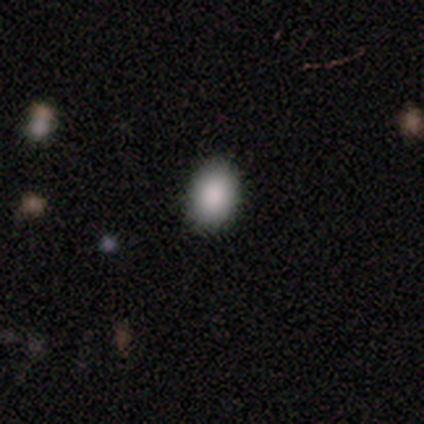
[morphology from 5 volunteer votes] This is clearly a smooth galaxy (80%). How rounded: clearly in between (100%). Merging: clearly none (100%).